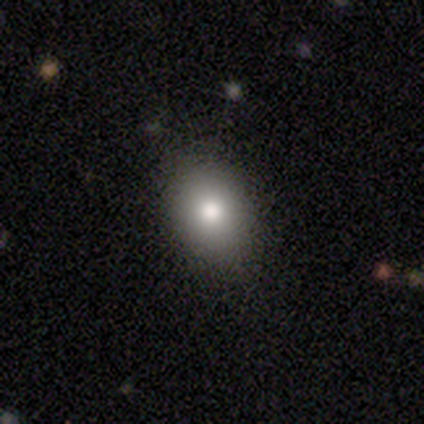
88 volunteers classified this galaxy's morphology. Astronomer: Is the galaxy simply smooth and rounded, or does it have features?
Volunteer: smooth — 76%.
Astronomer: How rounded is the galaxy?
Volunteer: in between — 61% (runner-up: round, 39%).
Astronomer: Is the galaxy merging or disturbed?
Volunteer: none — 88%.